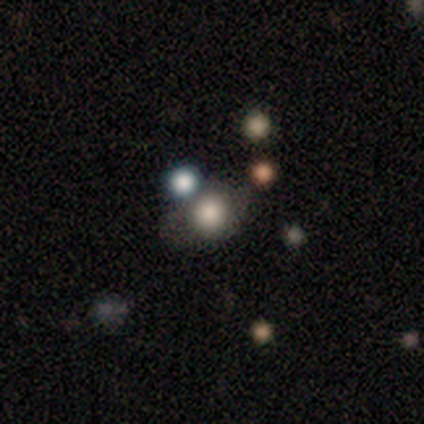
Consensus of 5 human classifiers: Smooth or featured? smooth (60%)
How rounded? round (100%)
Merging? none (75%)